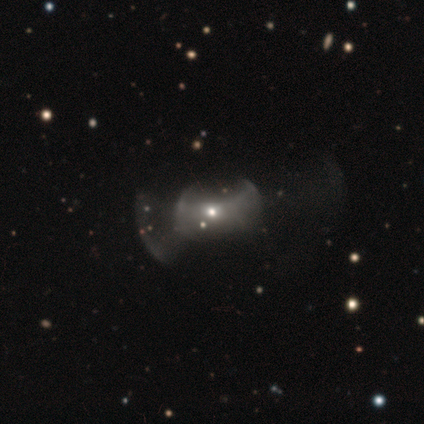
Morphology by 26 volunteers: smooth-or-featured: featured or disk: 58% | star or artifact: 31% | smooth: 12%
  disk-edge-on: no: 87% | yes: 13%
    bar: no: 100% | strong: 0% | weak: 0%
    has-spiral-arms: no: 100% | yes: 0%
    bulge-size: moderate: 54% | small: 46% | dominant: 0% | large: 0% | none: 0%
  merging: major disturbance: 50% | none: 28% | merger: 22% | minor disturbance: 0%